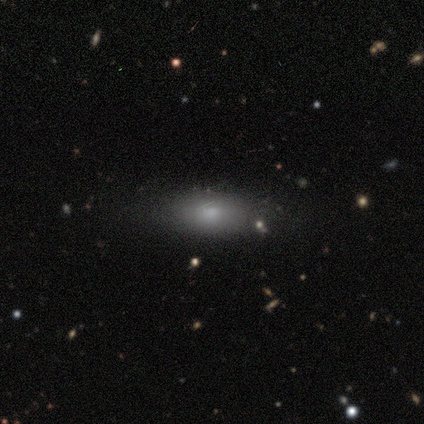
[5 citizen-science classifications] Smooth or featured? smooth (60%)
How rounded? in between (100%)
Merging? none (67%)